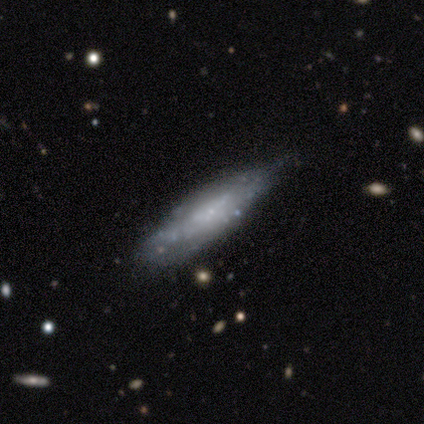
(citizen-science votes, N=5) Smooth or featured?
  - featured or disk: 80% *
  - smooth: 20%
  - star or artifact: 0%
Edge-on disk?
  - no: 75% *
  - yes: 25%
Bar?
  - no: 100% *
  - strong: 0%
  - weak: 0%
Spiral arms?
  - no: 100% *
  - yes: 0%
Bulge size?
  - small: 100% *
  - dominant: 0%
  - large: 0%
  - moderate: 0%
  - none: 0%
Merging?
  - minor disturbance: 60% *
  - none: 20%
  - major disturbance: 20%
  - merger: 0%